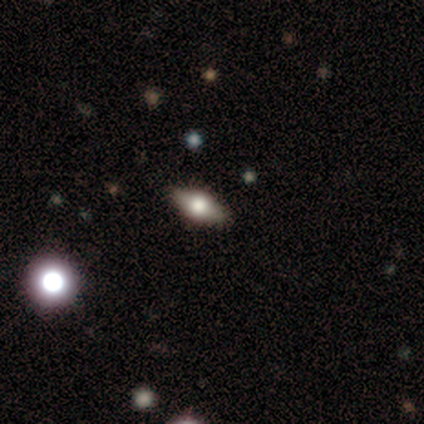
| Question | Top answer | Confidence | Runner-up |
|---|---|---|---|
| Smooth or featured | smooth | 57% | featured or disk (29%) |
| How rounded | in between | 100% | — |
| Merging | none | 83% | minor disturbance (17%) |